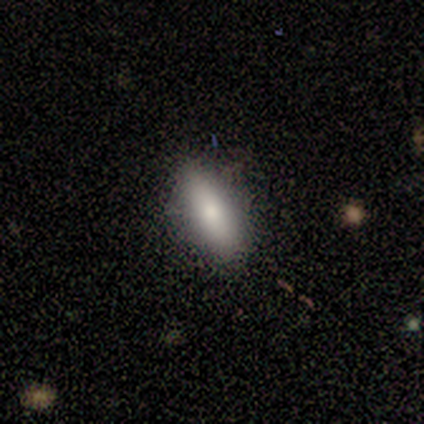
smooth_or_featured: smooth (p=0.75) [alt: star or artifact p=0.25]
how_rounded: cigar-shaped (p=0.67) [alt: in between p=0.33]
merging: none (p=1.00)